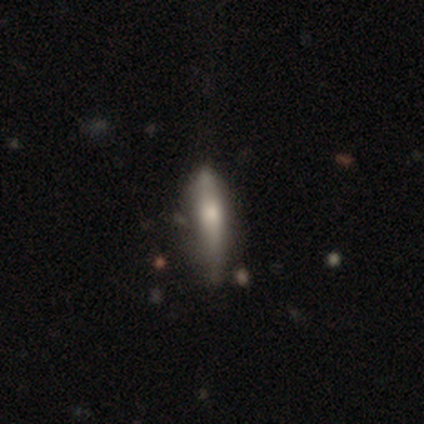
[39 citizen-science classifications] This is likely a smooth galaxy (67%). How rounded: clearly cigar-shaped (81%). Merging: likely none (63%).